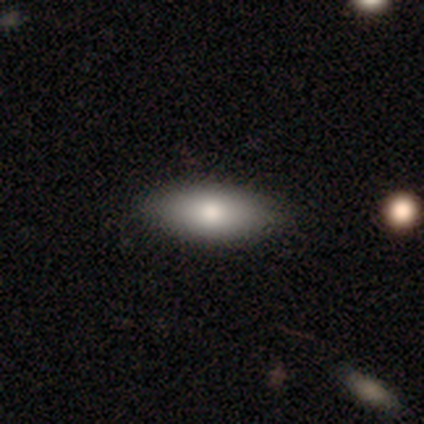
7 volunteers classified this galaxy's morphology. A smooth galaxy with no disk features (57%) that is in between round and cigar-shaped (100%).

Vote fractions:
- Smooth or featured? smooth: 57% / featured or disk: 43% / star or artifact: 0%
- How rounded? in between: 100% / round: 0% / cigar-shaped: 0%
- Merging? none: 100% / minor disturbance: 0% / major disturbance: 0% / merger: 0%